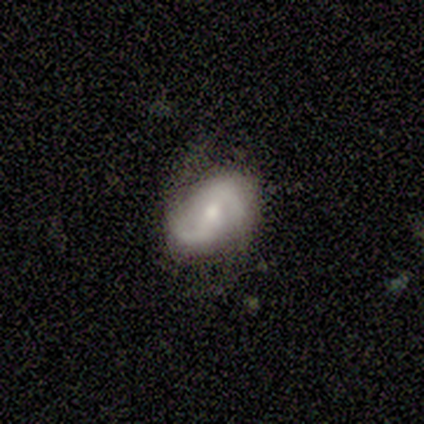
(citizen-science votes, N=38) This appears to be a featured or disk galaxy (74%) with a weak bar (46%), 2 (89%) loose (46%) spiral arms (100%) and a moderate central bulge (54%). Merging: none (68%).